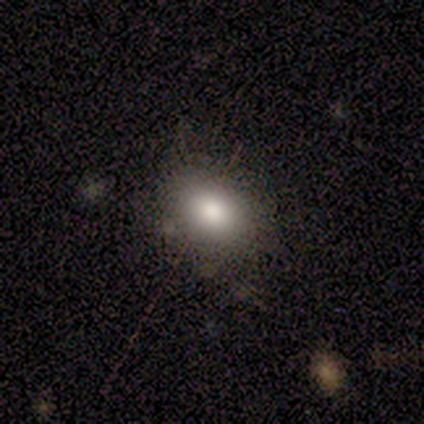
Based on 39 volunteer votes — Smooth or featured? smooth (82%)
How rounded? in between (69%)
Merging? none (44%)